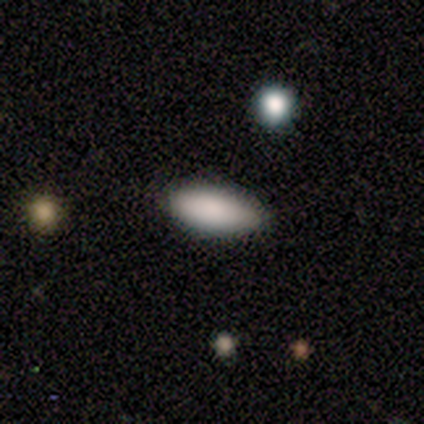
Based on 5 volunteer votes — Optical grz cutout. It shows a smooth galaxy with no disk features (80%) that is in between round and cigar-shaped (75%). Merging: none (75%).